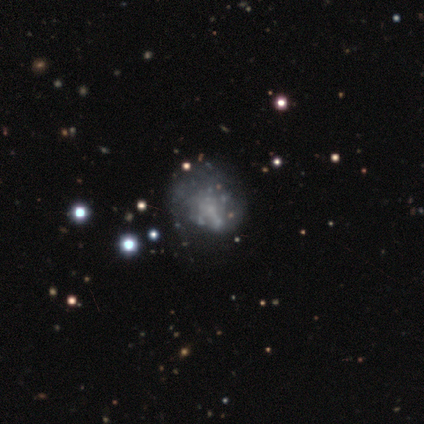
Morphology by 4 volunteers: A featured or disk galaxy (50%) with no bar (100%), no spiral arms (100%) and no central bulge (100%).

Vote fractions:
- Smooth or featured? featured or disk: 50% / smooth: 25% / star or artifact: 25%
- Edge-on disk? no: 100% / yes: 0%
- Bar? no: 100% / strong: 0% / weak: 0%
- Spiral arms? no: 100% / yes: 0%
- Bulge size? none: 100% / dominant: 0% / large: 0% / moderate: 0% / small: 0%
- Merging? none: 67% / major disturbance: 33% / minor disturbance: 0% / merger: 0%